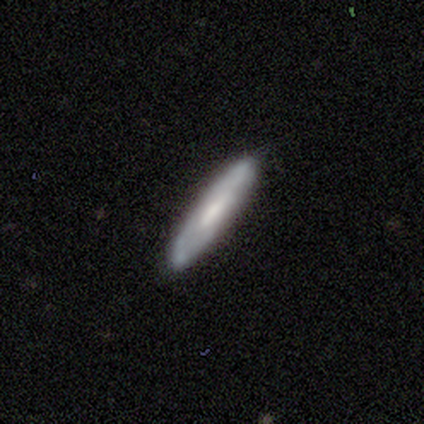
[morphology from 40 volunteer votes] Smooth or featured?
  - smooth: 52% *
  - featured or disk: 40%
  - star or artifact: 8%
How rounded?
  - cigar-shaped: 95% *
  - in between: 5%
  - round: 0%
Merging?
  - none: 92% *
  - minor disturbance: 8%
  - major disturbance: 0%
  - merger: 0%